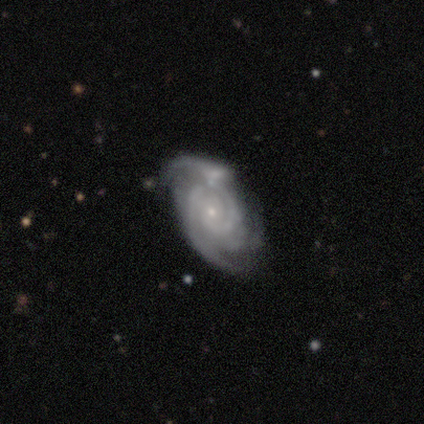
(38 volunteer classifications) smooth-or-featured: featured or disk: 95% | smooth: 5% | star or artifact: 0%
  disk-edge-on: no: 89% | yes: 11%
    bar: no: 72% | weak: 22% | strong: 6%
    has-spiral-arms: yes: 97% | no: 3%
      spiral-winding: tight: 52% | medium: 42% | loose: 6%
      spiral-arm-count: can't tell: 39% | 2: 26% | 3: 19% | 1: 10% | 4: 6% | more than 4: 0%
    bulge-size: small: 94% | moderate: 3% | none: 3% | dominant: 0% | large: 0%
  merging: none: 34% | merger: 26% | minor disturbance: 24% | major disturbance: 16%